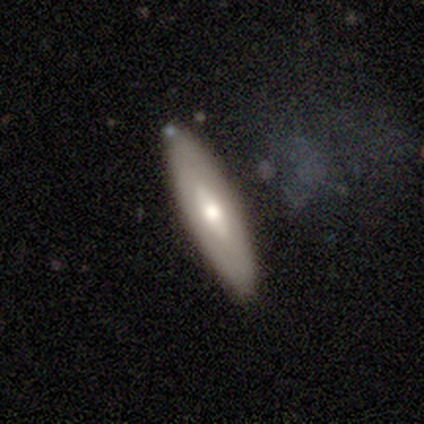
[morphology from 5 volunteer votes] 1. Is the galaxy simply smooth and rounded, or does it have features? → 80% featured or disk, 20% smooth, 0% star or artifact.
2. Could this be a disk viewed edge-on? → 75% no, 25% yes.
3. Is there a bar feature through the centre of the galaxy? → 100% no, 0% strong, 0% weak.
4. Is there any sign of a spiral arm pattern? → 67% no, 33% yes.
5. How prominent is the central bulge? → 67% moderate, 33% small, 0% dominant, 0% large, 0% none.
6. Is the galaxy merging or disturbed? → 80% none, 20% minor disturbance, 0% major disturbance, 0% merger.